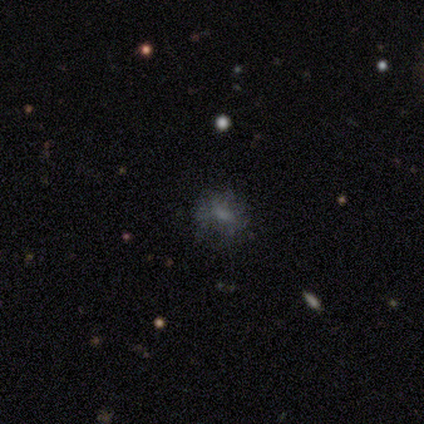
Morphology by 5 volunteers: A smooth galaxy with no disk features (40%, tied with featured or disk) that is round (100%).

Vote fractions:
- Smooth or featured? smooth: 40% (tied) / featured or disk: 40% (tied) / star or artifact: 20%
- How rounded? round: 100% / in between: 0% / cigar-shaped: 0%
- Merging? none: 75% / major disturbance: 25% / minor disturbance: 0% / merger: 0%